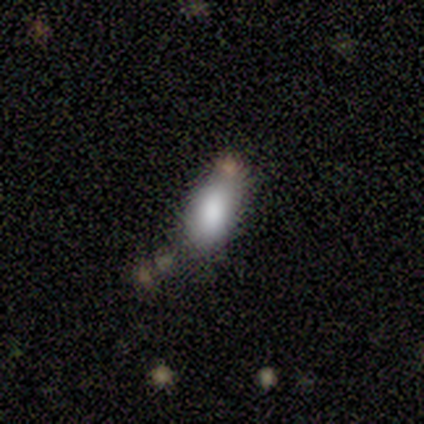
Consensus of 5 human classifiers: This is likely a smooth galaxy (60%). How rounded: clearly in between (100%). Merging: likely none (60%).